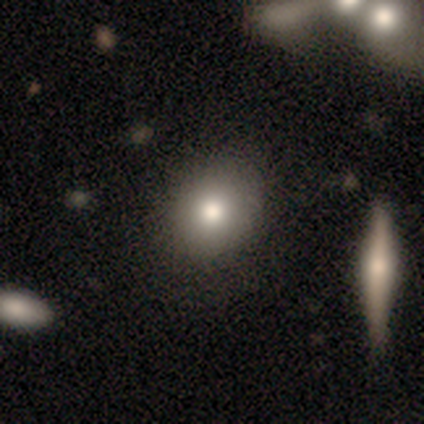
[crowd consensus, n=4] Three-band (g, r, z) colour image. It shows a smooth galaxy with no disk features (100%) that is round (50%, tied with in between). Merging: none (50%).